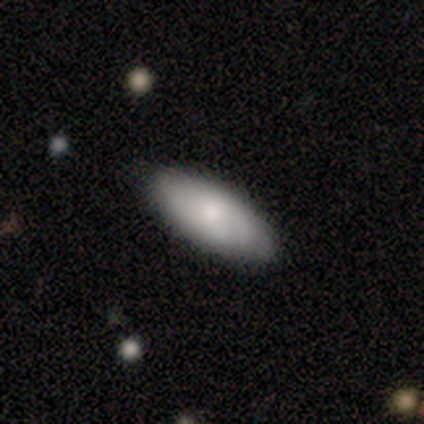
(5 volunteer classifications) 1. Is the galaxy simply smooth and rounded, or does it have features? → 100% smooth, 0% featured or disk, 0% star or artifact.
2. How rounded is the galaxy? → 60% in between, 40% cigar-shaped, 0% round.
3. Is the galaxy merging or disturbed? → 100% none, 0% minor disturbance, 0% major disturbance, 0% merger.